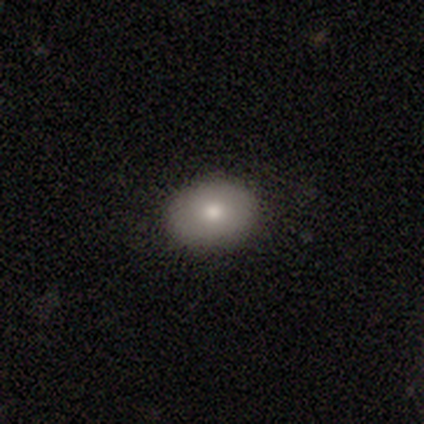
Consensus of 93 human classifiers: Overall: smooth (86%). How rounded: in between (59%; round 41%). Merging: none (85%).